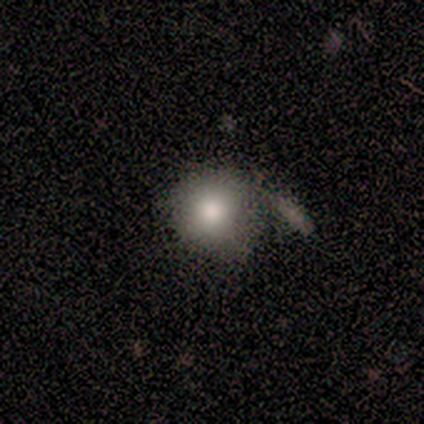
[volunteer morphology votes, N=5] smooth 100%, featured or disk 0%, star or artifact 0%. Down the decision tree: how rounded — round (80%); merging — merger (40%).